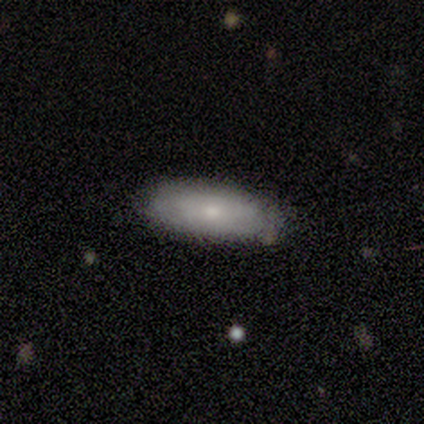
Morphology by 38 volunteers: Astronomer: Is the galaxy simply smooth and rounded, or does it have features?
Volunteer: smooth — 71%.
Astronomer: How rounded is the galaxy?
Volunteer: in between — 70%.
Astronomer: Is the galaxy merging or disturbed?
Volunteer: none — 89%.